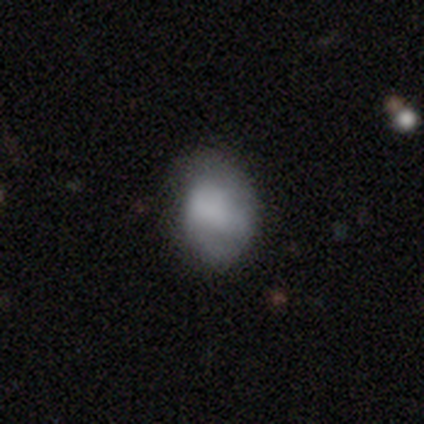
Smooth or featured?
  - smooth: 69% *
  - featured or disk: 25%
  - star or artifact: 6%
How rounded?
  - in between: 67% *
  - round: 33%
  - cigar-shaped: 0%
Merging?
  - none: 62% *
  - minor disturbance: 24%
  - major disturbance: 9%
  - merger: 4%